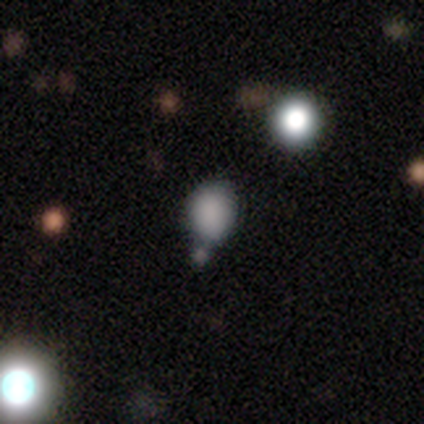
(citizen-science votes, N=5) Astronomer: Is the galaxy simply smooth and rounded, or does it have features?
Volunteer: smooth — 80%.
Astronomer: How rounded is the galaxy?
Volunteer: in between — 75%.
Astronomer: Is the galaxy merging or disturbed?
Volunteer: none — 50%, tied with merger at 50%.